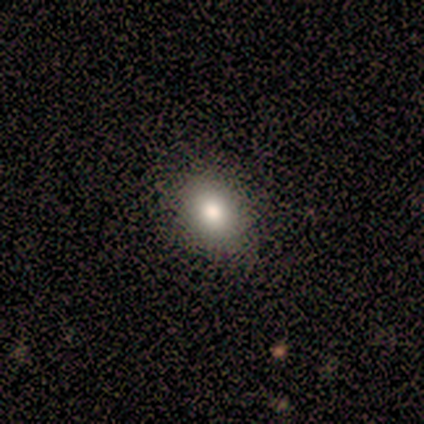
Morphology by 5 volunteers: This appears to be a smooth galaxy with no disk features (80%) that is round (50%, tied with in between). Merging: none (80%).